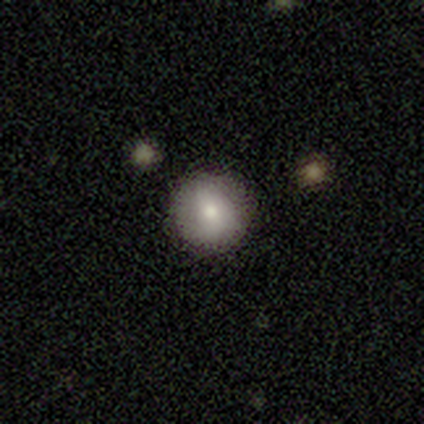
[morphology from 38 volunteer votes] type=smooth (68%); roundness=round (100%); merging=none (87%).